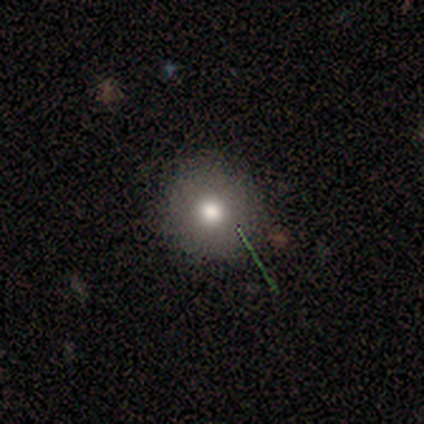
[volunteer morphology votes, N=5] smooth_or_featured: smooth (p=0.60) [alt: featured or disk p=0.40]
how_rounded: round (p=1.00)
merging: none (p=1.00)